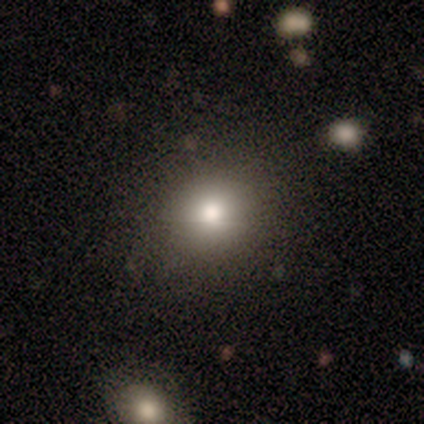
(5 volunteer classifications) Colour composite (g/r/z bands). It shows a smooth galaxy with no disk features (80%) that is round (75%). Merging: none (75%).